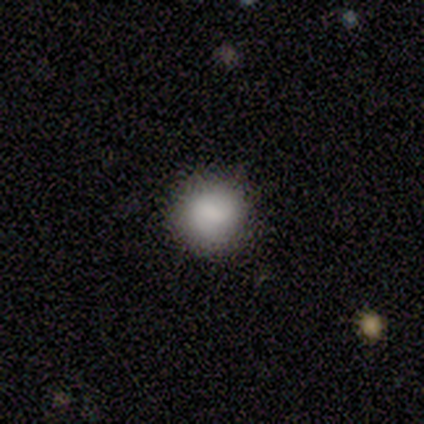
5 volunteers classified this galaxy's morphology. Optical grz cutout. It shows a smooth galaxy with no disk features (80%) that is round (100%). Merging: none (100%).